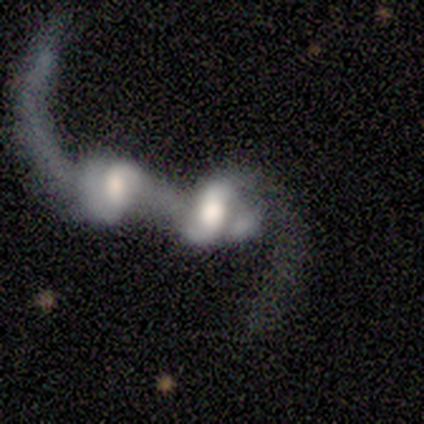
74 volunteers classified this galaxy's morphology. This appears to be a featured or disk galaxy (80%) with no bar (47%), 2 (52%) loose (85%) spiral arms (87%) and a large central bulge (38%). Merging: merger (89%).